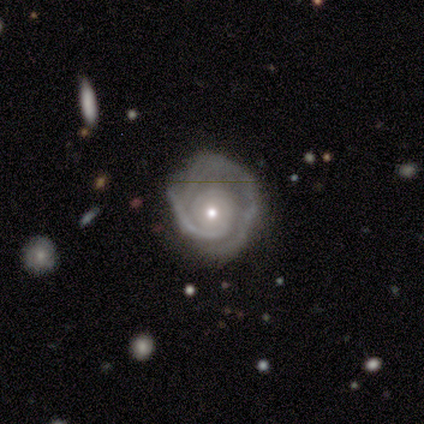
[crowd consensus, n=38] Smooth or featured?
  - featured or disk: 79% *
  - star or artifact: 13%
  - smooth: 8%
Edge-on disk?
  - no: 93% *
  - yes: 7%
Bar?
  - no: 93% *
  - weak: 7%
  - strong: 0%
Spiral arms?
  - yes: 93% *
  - no: 7%
Spiral winding?
  - tight: 69% *
  - medium: 27%
  - loose: 4%
Spiral arm count?
  - 1: 35% *
  - 2: 27%
  - 3: 19%
  - can't tell: 19%
  - 4: 0%
  - more than 4: 0%
Bulge size?
  - small: 61% *
  - moderate: 32%
  - large: 7%
  - dominant: 0%
  - none: 0%
Merging?
  - none: 67% *
  - minor disturbance: 18%
  - major disturbance: 15%
  - merger: 0%